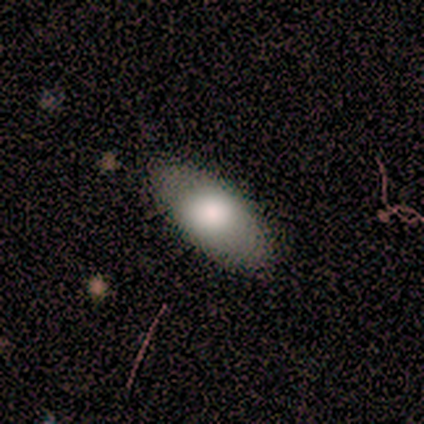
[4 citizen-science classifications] smooth-or-featured: smooth: 75% | featured or disk: 25% | star or artifact: 0%
  how-rounded: in between: 100% | round: 0% | cigar-shaped: 0%
  merging: none: 100% | minor disturbance: 0% | major disturbance: 0% | merger: 0%